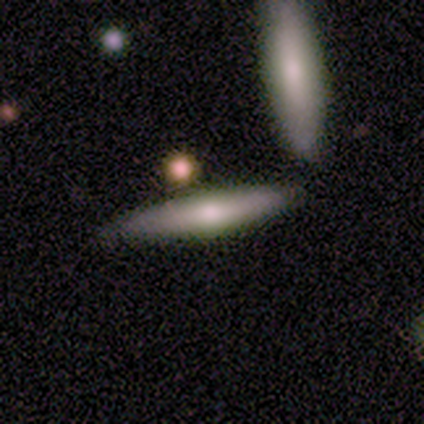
smooth-or-featured: smooth: 46% | featured or disk: 41% | star or artifact: 13%
  how-rounded: cigar-shaped: 94% | in between: 6% | round: 0%
  merging: none: 82% | minor disturbance: 12% | major disturbance: 3% | merger: 3%